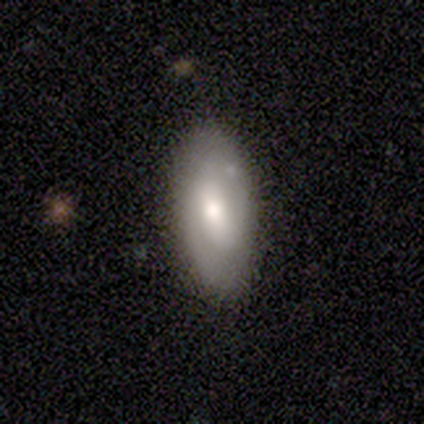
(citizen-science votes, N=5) A smooth galaxy with no disk features (80%) that is in between round and cigar-shaped (100%).

Vote fractions:
- Smooth or featured? smooth: 80% / featured or disk: 20% / star or artifact: 0%
- How rounded? in between: 100% / round: 0% / cigar-shaped: 0%
- Merging? none: 80% / minor disturbance: 20% / major disturbance: 0% / merger: 0%